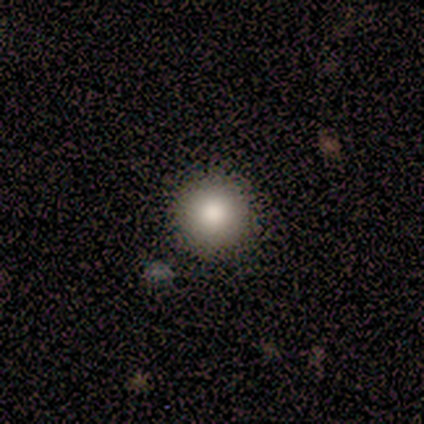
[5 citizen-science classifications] smooth-or-featured: smooth: 80% | featured or disk: 20% | star or artifact: 0%
  how-rounded: round: 100% | in between: 0% | cigar-shaped: 0%
  merging: none: 100% | minor disturbance: 0% | major disturbance: 0% | merger: 0%